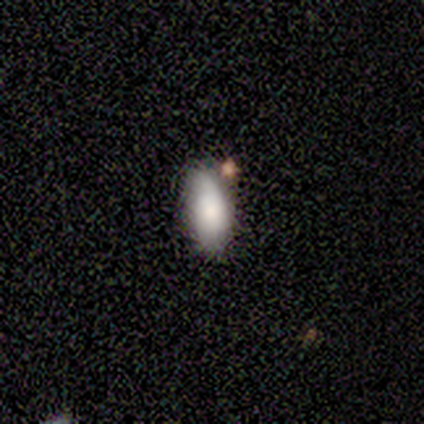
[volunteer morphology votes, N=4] Smooth or featured?
  - smooth: 75% *
  - featured or disk: 25%
  - star or artifact: 0%
How rounded?
  - in between: 67% *
  - cigar-shaped: 33%
  - round: 0%
Merging?
  - none: 100% *
  - minor disturbance: 0%
  - major disturbance: 0%
  - merger: 0%